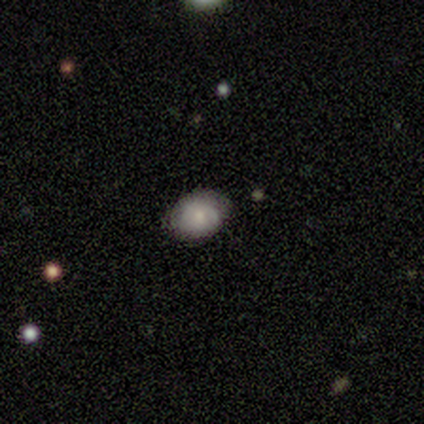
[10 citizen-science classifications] Q: Smooth or featured?
A: smooth (60%); runner-up: featured or disk (30%)
Q: How rounded?
A: in between (83%); runner-up: round (17%)
Q: Merging?
A: none (89%); runner-up: minor disturbance (11%)